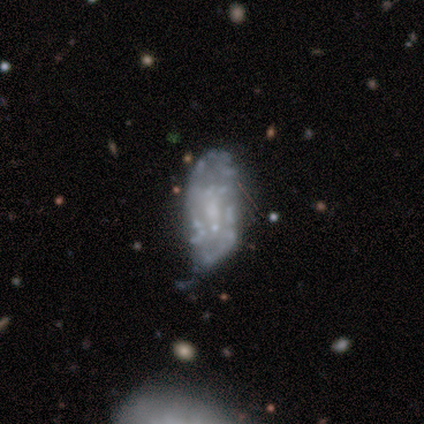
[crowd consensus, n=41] A featured or disk galaxy (56%) with no bar (74%), no spiral arms (78%) and no central bulge (52%).

Vote fractions:
- Smooth or featured? featured or disk: 56% / smooth: 37% / star or artifact: 7%
- Edge-on disk? no: 100% / yes: 0%
- Bar? no: 74% / weak: 22% / strong: 4%
- Spiral arms? no: 78% / yes: 22%
- Bulge size? none: 52% / small: 30% / moderate: 13% / dominant: 4% / large: 0%
- Merging? minor disturbance: 39% / none: 32% / major disturbance: 16% / merger: 13%